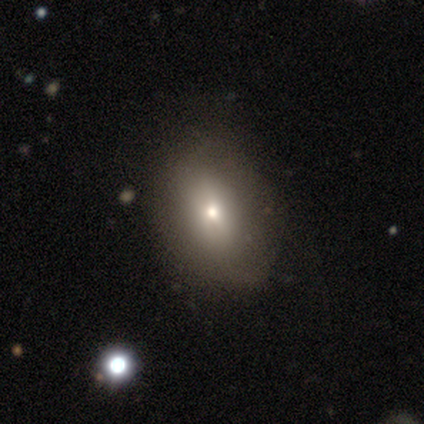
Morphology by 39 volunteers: Volunteers were most divided on "merging": none: 53%, minor disturbance: 18%, major disturbance: 9%, merger: 0%. More confident: how rounded — in between (80%); smooth or featured — smooth (64%).